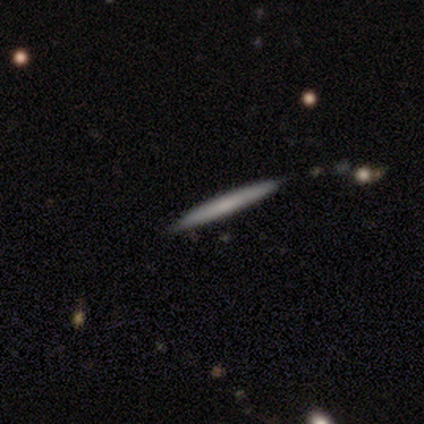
A smooth galaxy with no disk features (40%, tied with star or artifact) that is cigar-shaped (100%).

Vote fractions:
- Smooth or featured? smooth: 40% (tied) / star or artifact: 40% (tied) / featured or disk: 20%
- How rounded? cigar-shaped: 100% / round: 0% / in between: 0%
- Merging? none: 100% / minor disturbance: 0% / major disturbance: 0% / merger: 0%